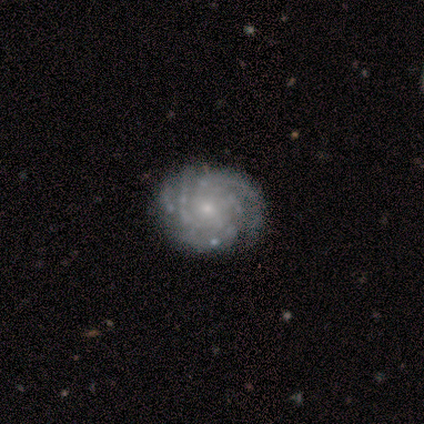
Morphology: type=featured or disk (87%); edge-on=no (100%); bar=no (92%); spiral arms=yes (100%); winding=tight (92%); arm count=can't tell (38%); bulge=small (92%); merging=none (93%).